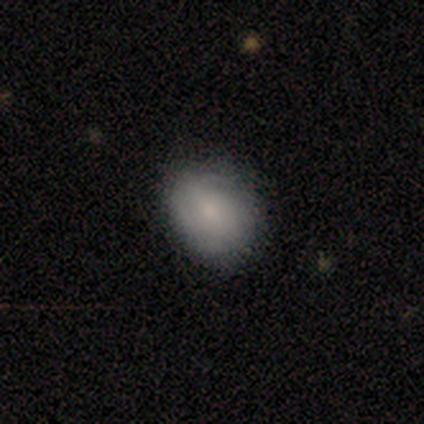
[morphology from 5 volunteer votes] smooth 60%, featured or disk 20%, star or artifact 20%. Down the decision tree: how rounded — round (67%); merging — none (100%).